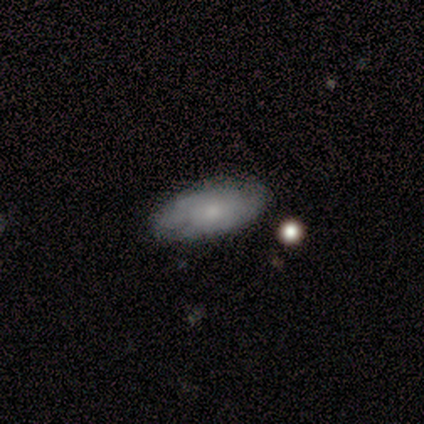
A smooth galaxy with no disk features (60%) that is in between round and cigar-shaped (67%). Merging: none (60%).